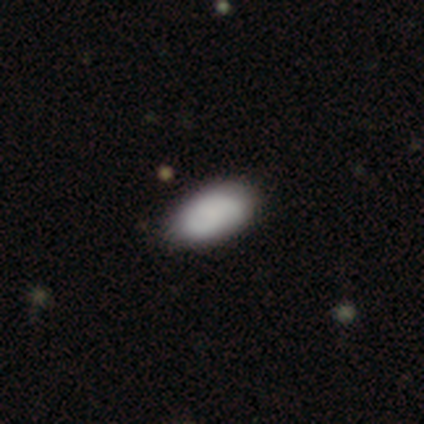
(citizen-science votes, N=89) This appears to be a smooth galaxy with no disk features (79%) that is in between round and cigar-shaped (99%). Merging: none (87%).